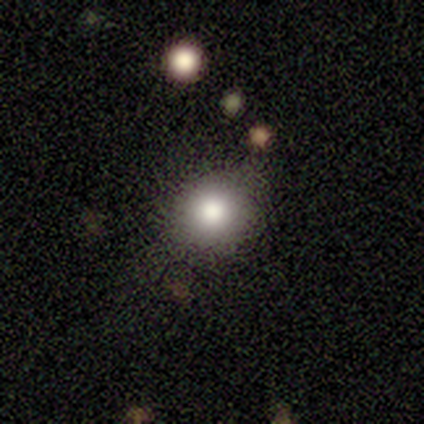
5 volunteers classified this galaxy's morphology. smooth-or-featured: smooth: 100% | featured or disk: 0% | star or artifact: 0%
  how-rounded: round: 60% | in between: 20% | cigar-shaped: 20%
  merging: minor disturbance: 60% | none: 40% | major disturbance: 0% | merger: 0%